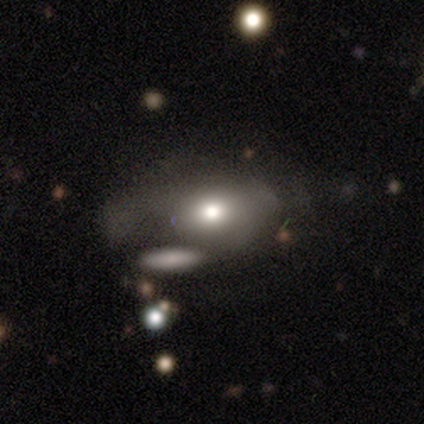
A smooth galaxy with no disk features (63%) that is in between round and cigar-shaped (82%).

Vote fractions:
- Smooth or featured? smooth: 63% / featured or disk: 25% / star or artifact: 12%
- How rounded? in between: 82% / round: 16% / cigar-shaped: 2%
- Merging? major disturbance: 41% / minor disturbance: 21% / merger: 21% / none: 16%